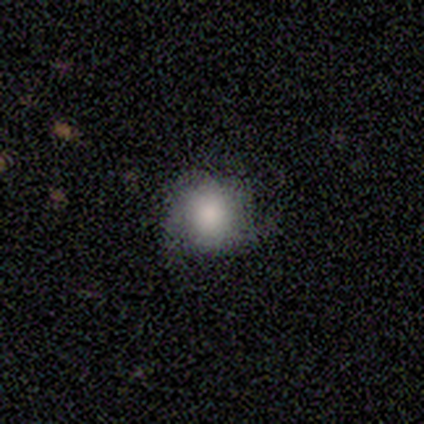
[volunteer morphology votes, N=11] This appears to be a smooth galaxy with no disk features (64%) that is round (100%). Merging: none (82%).